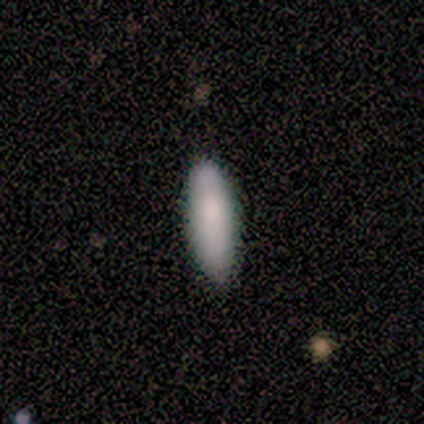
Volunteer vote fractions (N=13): Morphology: type=smooth (92%); roundness=in between (58%); merging=none (85%).